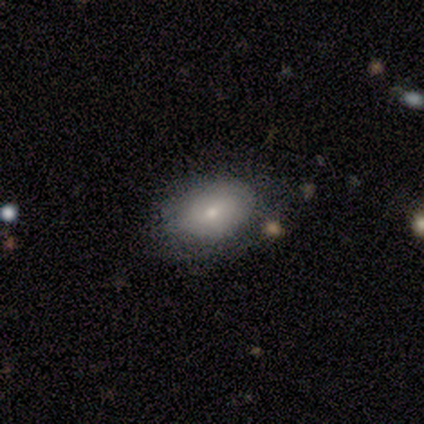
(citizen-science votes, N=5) This is clearly a smooth galaxy (80%). How rounded: clearly in between (100%). Merging: likely none (60%).